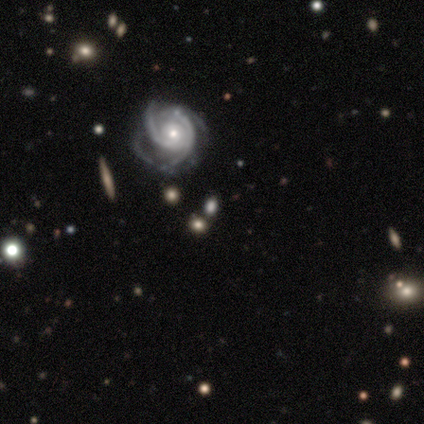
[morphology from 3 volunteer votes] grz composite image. It shows a featured or disk galaxy (100%) with a weak bar (67%), 2 (50%, tied with 3) tight (50%, tied with loose) spiral arms (67%) and a small central bulge (67%). Merging: none (100%).